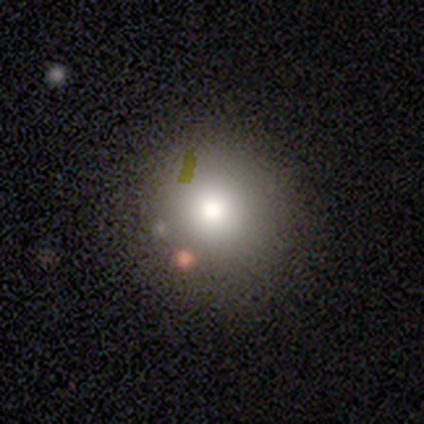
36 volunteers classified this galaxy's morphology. This is clearly a smooth galaxy (83%). How rounded: clearly round (97%). Merging: possibly none (59%).